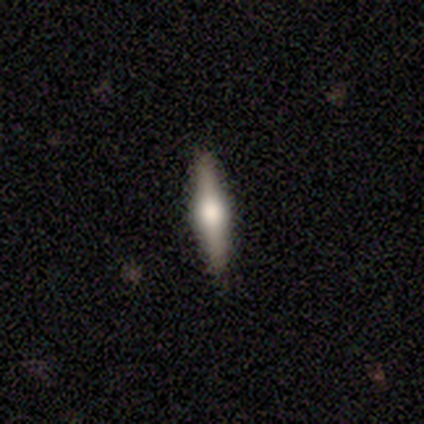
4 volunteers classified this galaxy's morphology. A smooth galaxy with no disk features (75%) that is cigar-shaped (67%).

Vote fractions:
- Smooth or featured? smooth: 75% / featured or disk: 25% / star or artifact: 0%
- How rounded? cigar-shaped: 67% / in between: 33% / round: 0%
- Merging? none: 100% / minor disturbance: 0% / major disturbance: 0% / merger: 0%